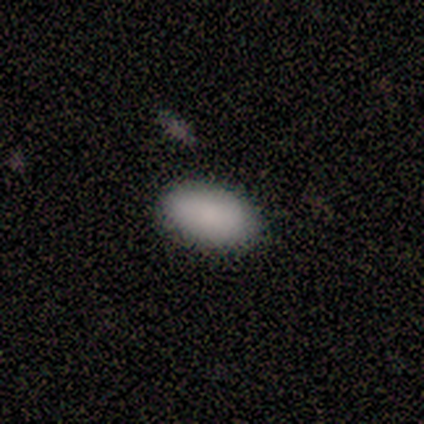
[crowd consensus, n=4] Smooth or featured: smooth — 100%
How rounded: in between — 75% (cigar-shaped — 25%)
Merging: none — 50% (minor disturbance — 25%)